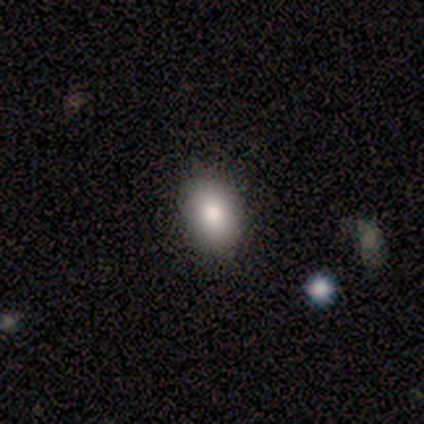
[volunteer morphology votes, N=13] smooth-or-featured: smooth: 77% | featured or disk: 15% | star or artifact: 8%
  how-rounded: in between: 100% | round: 0% | cigar-shaped: 0%
  merging: none: 92% | minor disturbance: 8% | major disturbance: 0% | merger: 0%